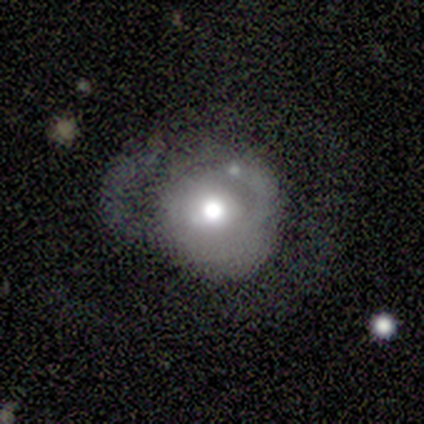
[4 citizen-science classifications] A smooth galaxy with no disk features (50%, tied with featured or disk) that is round (50%, tied with in between). Merging: major disturbance (50%).